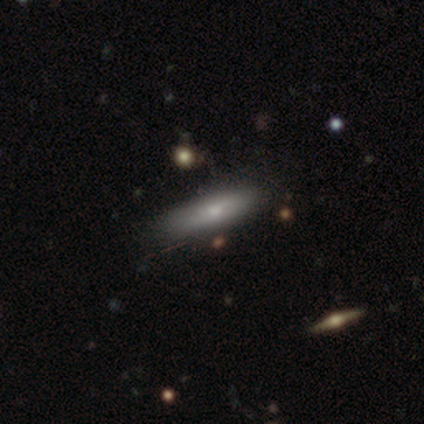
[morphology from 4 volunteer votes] Smooth or featured? 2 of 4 (50%, tied with featured or disk) said smooth. How rounded? 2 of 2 (100%) said cigar-shaped. Merging? 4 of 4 (100%) said none.